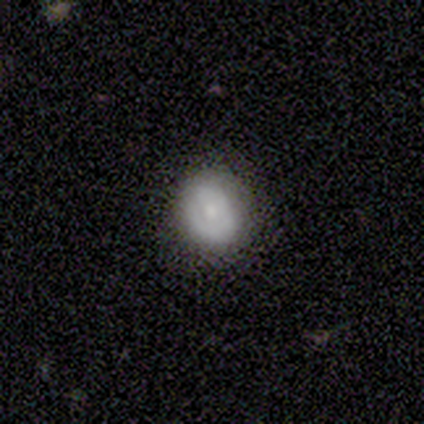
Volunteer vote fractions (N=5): Smooth or featured: smooth — 60% (featured or disk — 40%)
How rounded: round — 67% (in between — 33%)
Merging: none — 100%